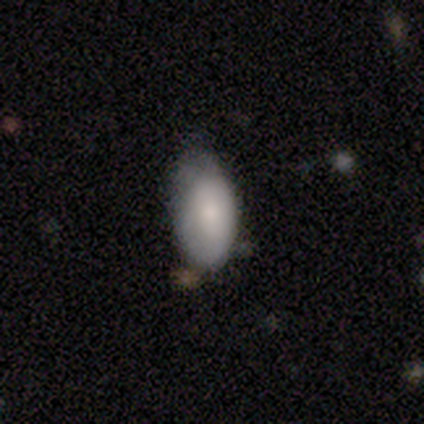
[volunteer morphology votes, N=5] Q: Smooth or featured?
A: smooth (100%)
Q: How rounded?
A: in between (100%)
Q: Merging?
A: minor disturbance (60%); runner-up: none (40%)